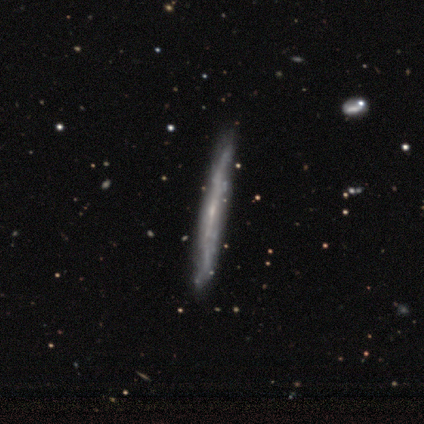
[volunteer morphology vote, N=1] Smooth or featured? 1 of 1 (100%) said smooth. How rounded? 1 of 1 (100%) said cigar-shaped. Merging? 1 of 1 (100%) said major disturbance.